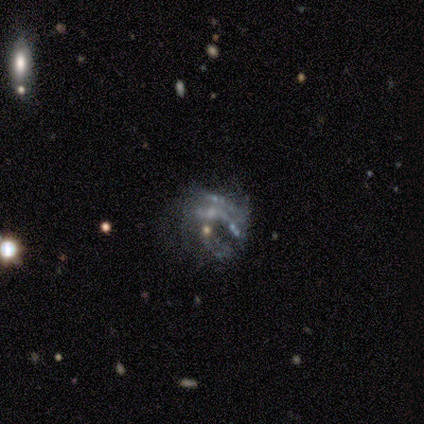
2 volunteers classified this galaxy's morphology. Overall: featured or disk (100%). Edge-on disk: no (100%). Bar: no (100%). Spiral arms: no (100%). Bulge size: none (100%). Merging: none (100%).